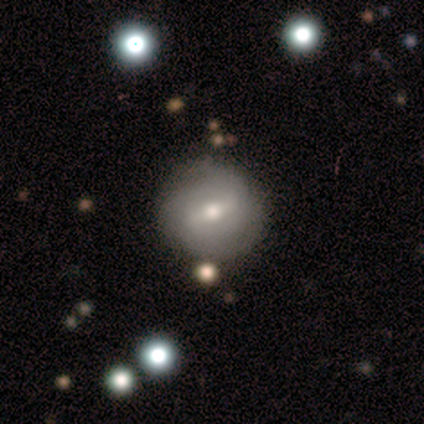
Overall: featured or disk (58%; smooth 32%). Edge-on disk: no (100%). Bar: weak (50%; strong 33%). Spiral arms: yes (50%, tied with no). Spiral arm count: 2 (56%; 3 22%). Spiral winding: tight (89%). Bulge size: moderate (61%; small 22%). Merging: none (75%).